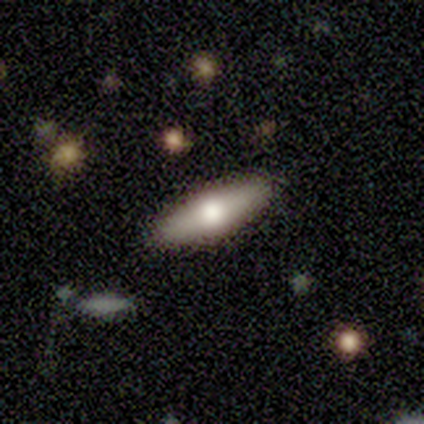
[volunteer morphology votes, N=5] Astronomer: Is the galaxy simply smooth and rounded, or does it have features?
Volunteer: featured or disk — 60% (runner-up: smooth, 40%).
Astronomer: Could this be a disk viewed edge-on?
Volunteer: yes — 100%.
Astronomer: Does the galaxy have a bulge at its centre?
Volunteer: rounded — 100%.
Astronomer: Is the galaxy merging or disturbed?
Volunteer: minor disturbance — 60% (runner-up: none, 40%).